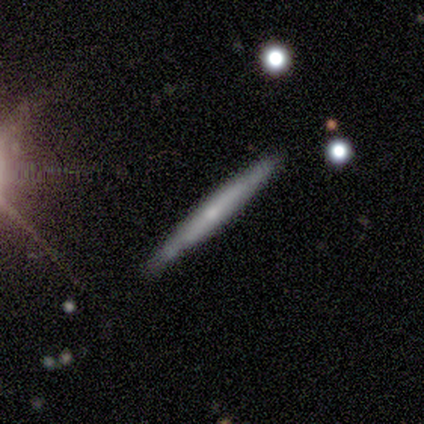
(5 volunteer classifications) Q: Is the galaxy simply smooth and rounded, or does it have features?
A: featured or disk — 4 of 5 (80%).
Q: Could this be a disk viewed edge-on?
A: yes — 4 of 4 (100%).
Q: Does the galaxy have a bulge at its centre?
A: none — 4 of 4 (100%).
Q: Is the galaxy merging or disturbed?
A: none — 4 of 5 (80%).